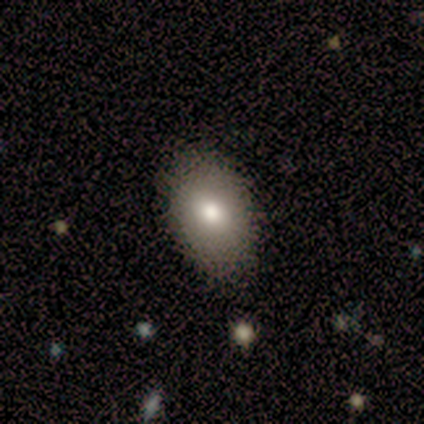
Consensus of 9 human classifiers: Volunteers were most divided on "smooth or featured": smooth: 67%, featured or disk: 22%, star or artifact: 11%. More confident: how rounded — in between (83%); merging — none (75%).